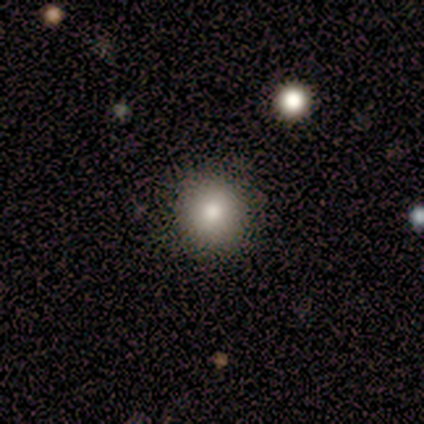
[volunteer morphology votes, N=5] smooth_or_featured: smooth (p=1.00)
how_rounded: round (p=1.00)
merging: none (p=1.00)